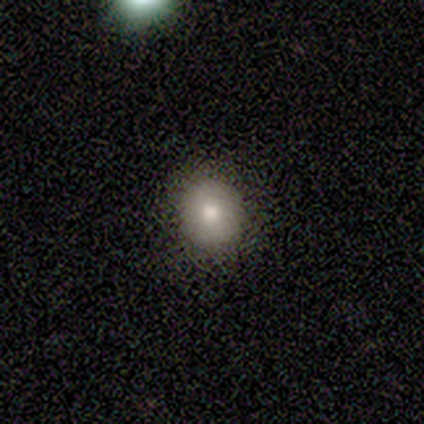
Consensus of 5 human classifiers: A smooth galaxy with no disk features (80%) that is round (50%, tied with in between).

Vote fractions:
- Smooth or featured? smooth: 80% / star or artifact: 20% / featured or disk: 0%
- How rounded? round: 50% (tied) / in between: 50% (tied) / cigar-shaped: 0%
- Merging? none: 100% / minor disturbance: 0% / major disturbance: 0% / merger: 0%